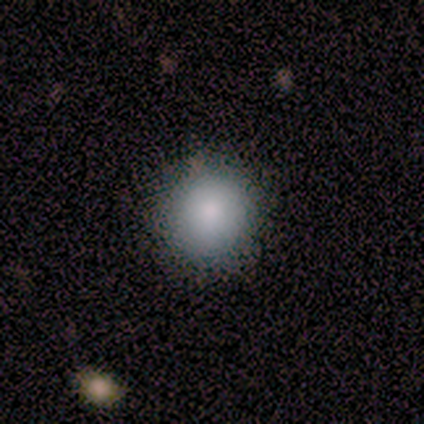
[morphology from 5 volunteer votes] Consensus on every question: smooth or featured — smooth (100%); how rounded — round (100%); merging — none (100%).